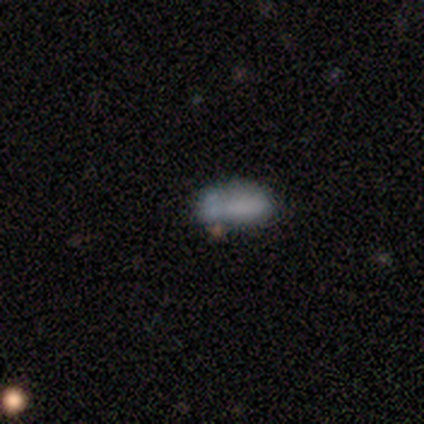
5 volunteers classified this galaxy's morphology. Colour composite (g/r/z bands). It shows a smooth galaxy with no disk features (60%) that is in between round and cigar-shaped (67%). Merging: none (40%, tied with major disturbance).